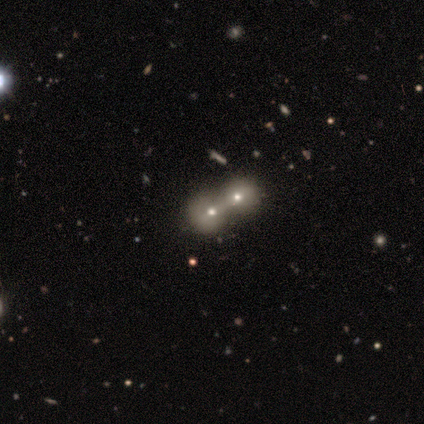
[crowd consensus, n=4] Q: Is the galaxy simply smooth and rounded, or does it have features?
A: smooth — 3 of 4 (75%).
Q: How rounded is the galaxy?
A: round — 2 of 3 (67%).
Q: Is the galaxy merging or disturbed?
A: merger — 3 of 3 (100%).